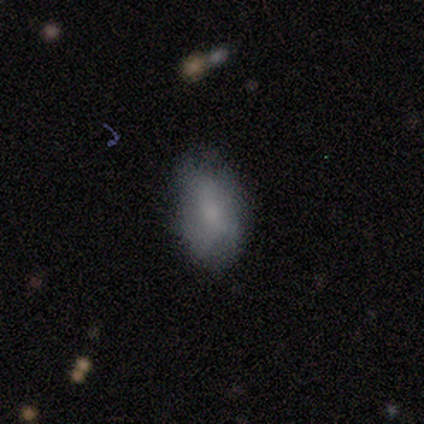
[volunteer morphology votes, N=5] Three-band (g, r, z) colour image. It shows a smooth galaxy with no disk features (80%) that is in between round and cigar-shaped (100%). Merging: minor disturbance (60%).